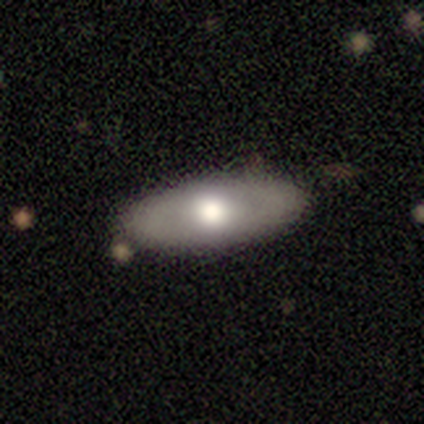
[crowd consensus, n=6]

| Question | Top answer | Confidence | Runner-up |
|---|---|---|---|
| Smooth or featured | smooth | 67% | featured or disk (17%) |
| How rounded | in between | 75% | cigar-shaped (25%) |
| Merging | none | 100% | — |